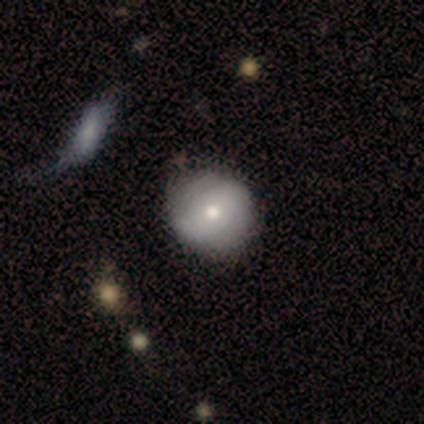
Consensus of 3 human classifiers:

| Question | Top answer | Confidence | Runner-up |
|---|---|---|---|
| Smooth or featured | featured or disk | 67% | smooth (33%) |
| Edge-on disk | no | 100% | — |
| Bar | no | 100% | — |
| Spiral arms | no | 100% | — |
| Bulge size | moderate | 50% | tied: small (50%) |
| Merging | none | 100% | — |